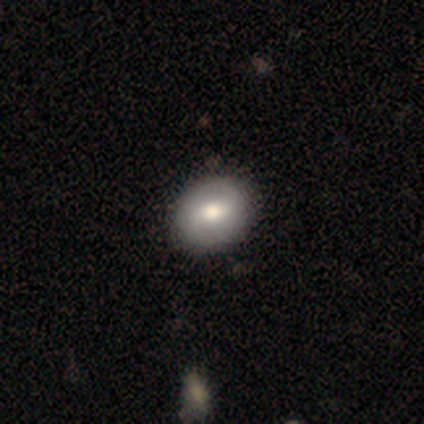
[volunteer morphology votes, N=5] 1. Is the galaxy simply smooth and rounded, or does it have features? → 80% smooth, 20% featured or disk, 0% star or artifact.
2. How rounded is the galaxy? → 50% round (tied), 50% in between (tied), 0% cigar-shaped.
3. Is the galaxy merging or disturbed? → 100% none, 0% minor disturbance, 0% major disturbance, 0% merger.